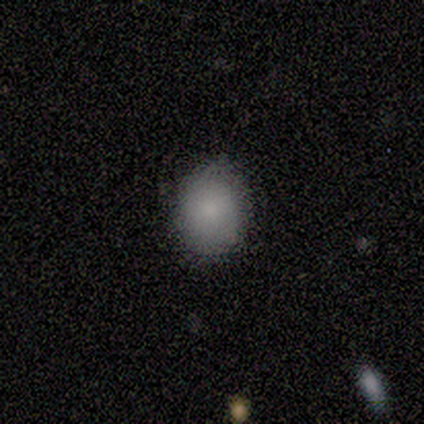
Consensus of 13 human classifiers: Morphology: type=smooth (85%); roundness=round (64%); merging=none (75%).